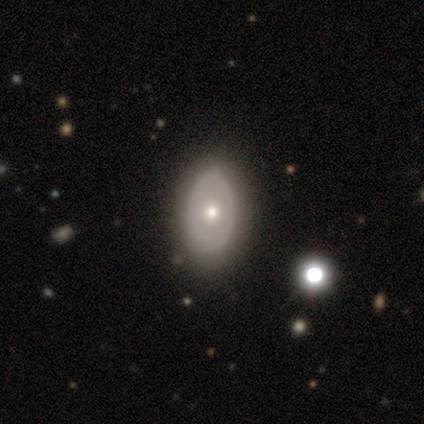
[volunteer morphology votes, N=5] featured or disk 60%, smooth 40%, star or artifact 0%. Down the decision tree: edge-on disk — no (100%); bar — no (67%); spiral arms — no (100%); bulge size — large (33%, tied with moderate and small); merging — none (80%).